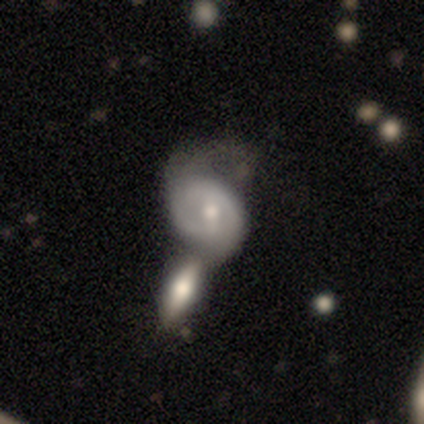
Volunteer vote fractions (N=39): featured or disk 62%, smooth 33%, star or artifact 5%. Down the decision tree: edge-on disk — no (96%); bar — weak (57%); spiral arms — yes (87%); spiral arm count — can't tell (55%); spiral winding — medium (50%); bulge size — moderate (57%); merging — merger (57%).